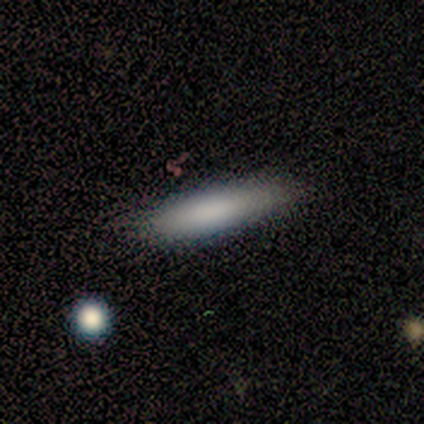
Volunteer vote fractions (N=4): Volunteers were most divided on "merging" (2-way tie): none: 50%, major disturbance: 50%, minor disturbance: 0%, merger: 0%. More confident: smooth or featured — smooth (100%); how rounded — cigar-shaped (75%).